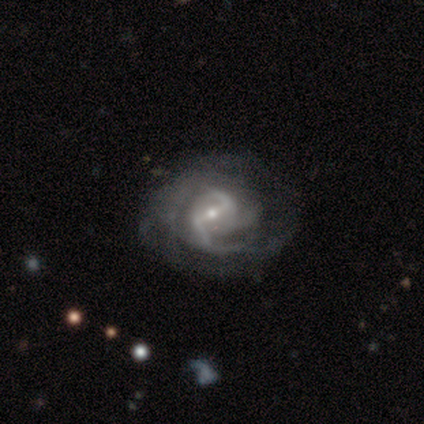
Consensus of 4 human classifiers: Q: Smooth or featured?
A: featured or disk (100%)
Q: Edge-on disk?
A: no (100%)
Q: Bar?
A: weak (75%); runner-up: strong (25%)
Q: Spiral arms?
A: yes (100%)
Q: Spiral winding?
A: medium (100%)
Q: Spiral arm count?
A: 3 (75%); runner-up: 2 (25%)
Q: Bulge size?
A: moderate (50%); tied with: small (50%)
Q: Merging?
A: none (100%)